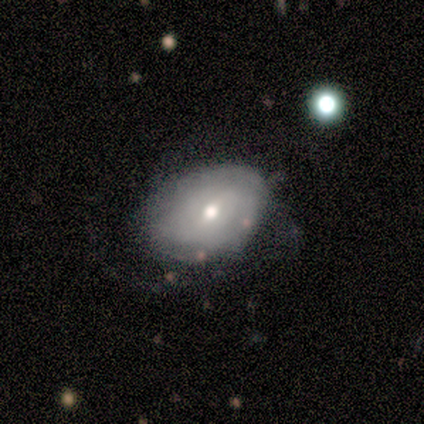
A featured or disk galaxy (60%) with no bar (67%), tight (100%) spiral arms (67%) and a moderate central bulge (100%). Merging: minor disturbance (100%).